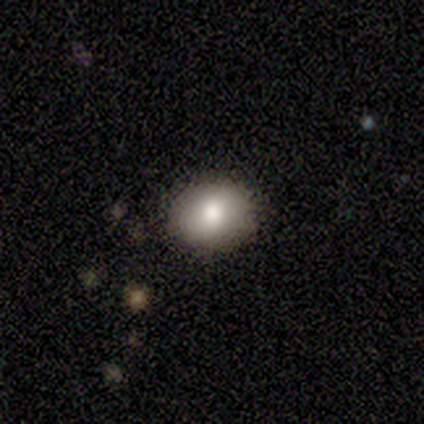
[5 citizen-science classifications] Smooth or featured?
  - smooth: 80% *
  - featured or disk: 20%
  - star or artifact: 0%
How rounded?
  - round: 75% *
  - in between: 25%
  - cigar-shaped: 0%
Merging?
  - none: 100% *
  - minor disturbance: 0%
  - major disturbance: 0%
  - merger: 0%